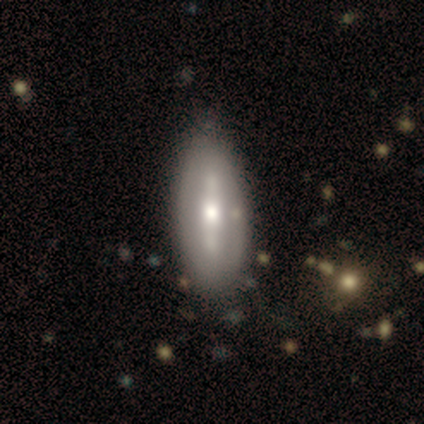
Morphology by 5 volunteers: smooth-or-featured: featured or disk: 100% | smooth: 0% | star or artifact: 0%
  disk-edge-on: no: 100% | yes: 0%
    bar: strong: 40% (tied) | no: 40% (tied) | weak: 20%
    has-spiral-arms: no: 80% | yes: 20%
    bulge-size: moderate: 60% | small: 40% | dominant: 0% | large: 0% | none: 0%
  merging: none: 80% | minor disturbance: 20% | major disturbance: 0% | merger: 0%